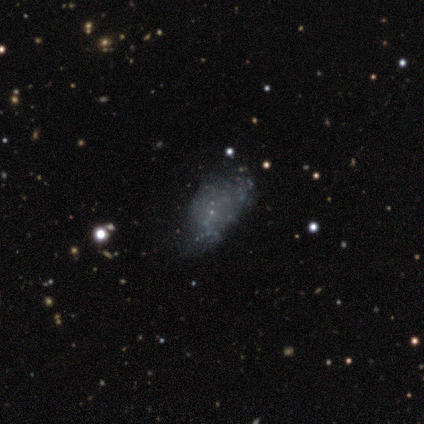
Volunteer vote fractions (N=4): A smooth galaxy with no disk features (50%) that is in between round and cigar-shaped (100%).

Vote fractions:
- Smooth or featured? smooth: 50% / featured or disk: 25% / star or artifact: 25%
- How rounded? in between: 100% / round: 0% / cigar-shaped: 0%
- Merging? minor disturbance: 67% / none: 33% / major disturbance: 0% / merger: 0%